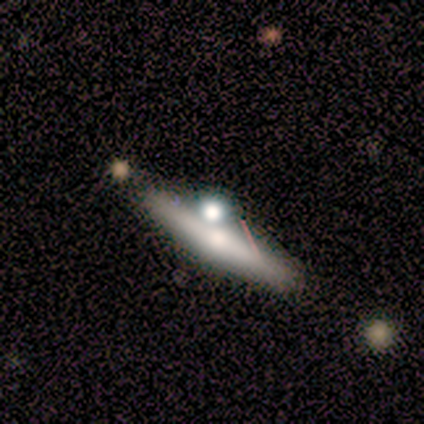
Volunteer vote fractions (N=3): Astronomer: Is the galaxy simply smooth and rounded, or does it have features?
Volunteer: featured or disk — 67%.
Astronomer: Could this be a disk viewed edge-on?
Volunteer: yes — 100%.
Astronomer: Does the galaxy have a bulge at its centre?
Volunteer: rounded — 100%.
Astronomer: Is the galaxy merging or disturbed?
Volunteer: none — 33%, tied with major disturbance and merger at 33%.